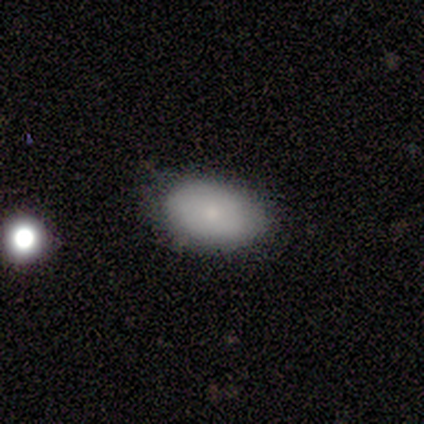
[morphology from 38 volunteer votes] This is clearly a smooth galaxy (82%). How rounded: clearly in between (97%). Merging: likely none (77%).